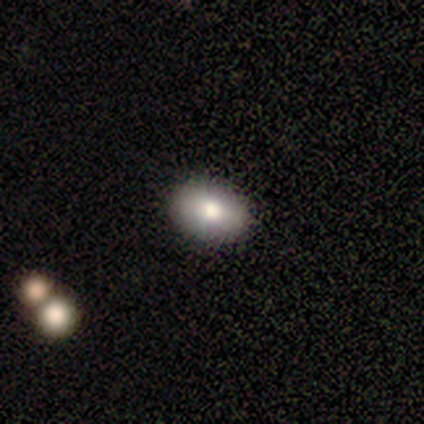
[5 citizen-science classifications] A smooth galaxy with no disk features (80%) that is in between round and cigar-shaped (100%). Merging: none (100%).